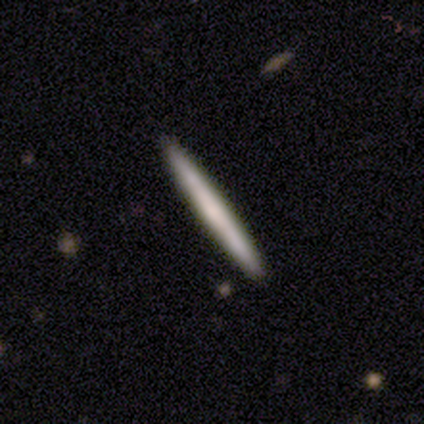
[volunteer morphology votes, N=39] Overall: smooth (56%; featured or disk 41%). How rounded: cigar-shaped (100%). Merging: none (84%).